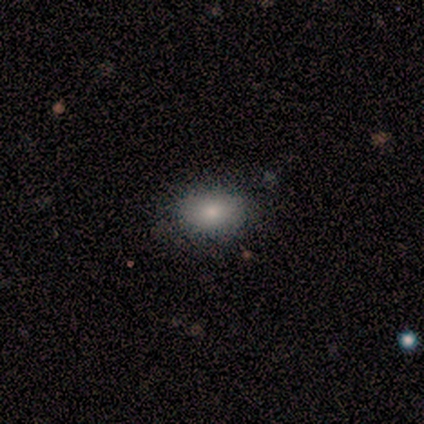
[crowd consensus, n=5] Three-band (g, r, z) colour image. It shows a smooth galaxy with no disk features (40%, tied with star or artifact) that is in between round and cigar-shaped (100%). Merging: none (100%).